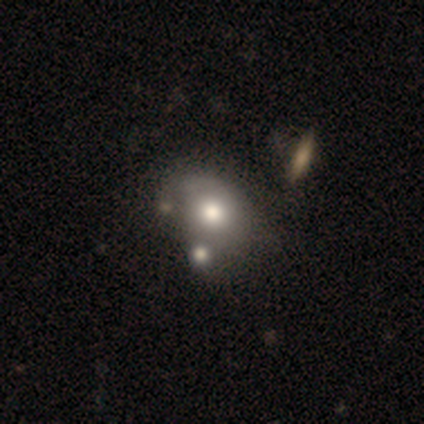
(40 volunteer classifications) This is possibly a smooth galaxy (52%). How rounded: likely in between (67%). Merging: marginally none (35%).